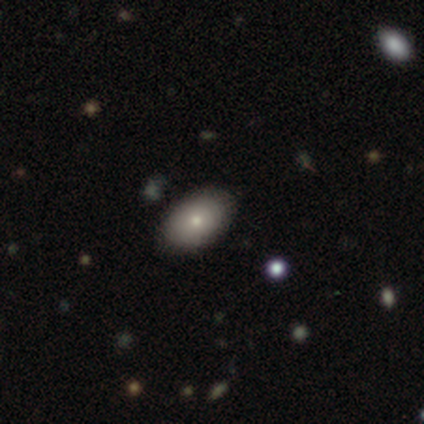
This is clearly a smooth galaxy (80%). How rounded: likely in between (75%). Merging: clearly none (100%).